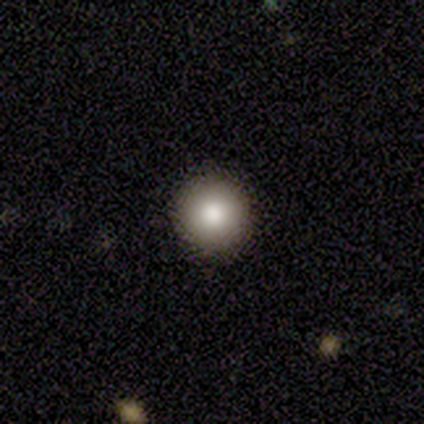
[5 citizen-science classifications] smooth_or_featured: smooth (p=0.60) [alt: star or artifact p=0.40]
how_rounded: round (p=1.00)
merging: none (p=1.00)